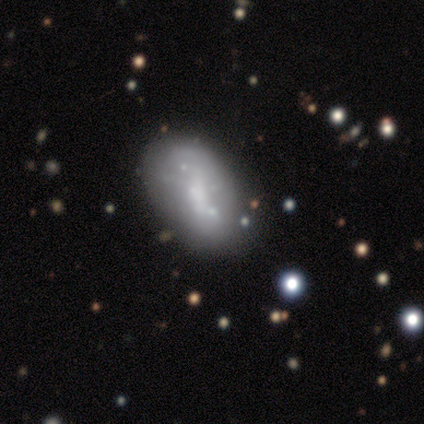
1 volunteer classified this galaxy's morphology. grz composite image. It shows a smooth galaxy with no disk features (100%) that is round (100%). Merging: none (100%).